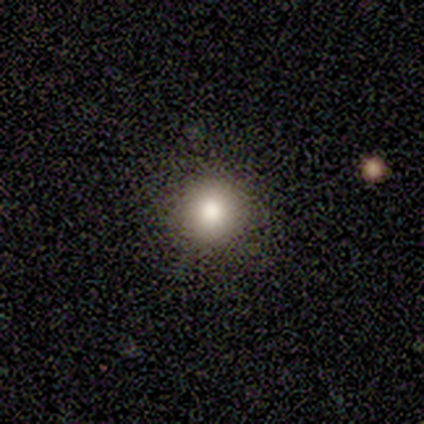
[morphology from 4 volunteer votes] Smooth or featured?
  - smooth: 50% * (tied)
  - star or artifact: 50% * (tied)
  - featured or disk: 0%
How rounded?
  - round: 100% *
  - in between: 0%
  - cigar-shaped: 0%
Merging?
  - none: 100% *
  - minor disturbance: 0%
  - major disturbance: 0%
  - merger: 0%